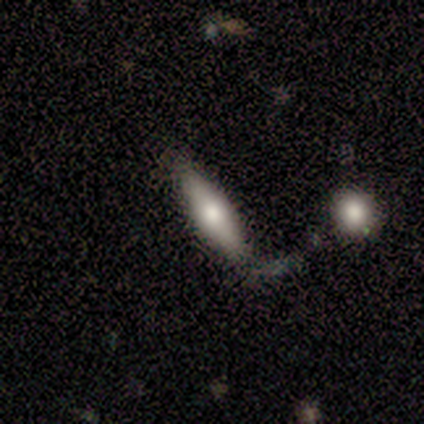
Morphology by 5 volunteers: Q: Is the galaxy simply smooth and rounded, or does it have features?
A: smooth — 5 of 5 (100%).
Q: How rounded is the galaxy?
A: cigar-shaped — 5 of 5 (100%).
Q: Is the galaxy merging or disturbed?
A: major disturbance — 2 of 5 (40%).